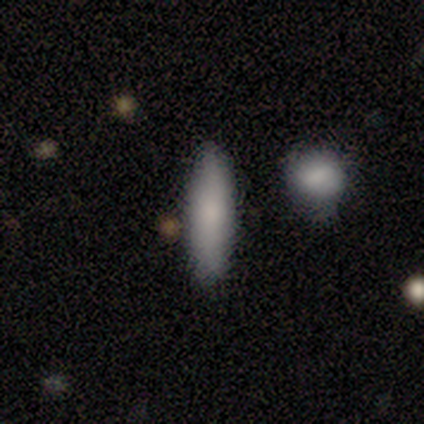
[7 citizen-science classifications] Overall: smooth (71%). How rounded: cigar-shaped (80%). Merging: none (100%).